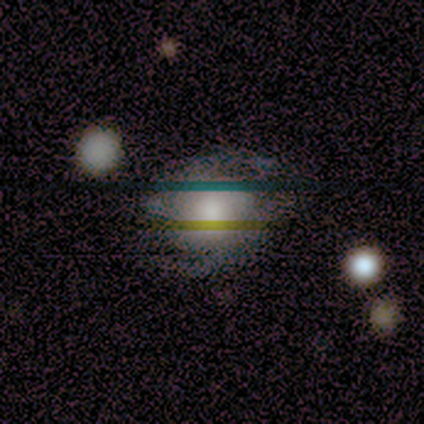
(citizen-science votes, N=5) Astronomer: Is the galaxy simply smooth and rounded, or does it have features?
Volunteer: smooth — 40%, tied with star or artifact at 40%.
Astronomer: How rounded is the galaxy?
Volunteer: round — 100%.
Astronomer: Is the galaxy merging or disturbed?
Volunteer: none — 67%.